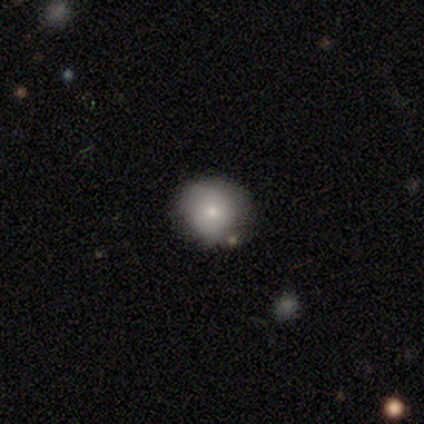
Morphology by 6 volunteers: This is likely a smooth galaxy (67%). How rounded: clearly round (100%). Merging: clearly none (100%).